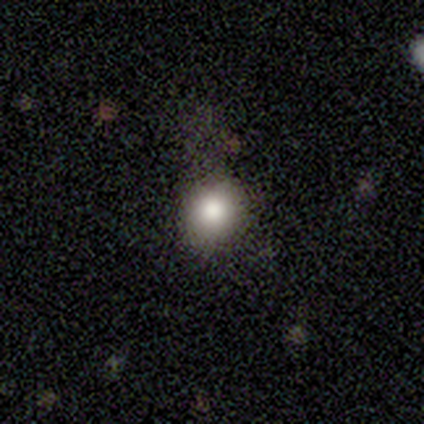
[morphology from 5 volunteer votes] smooth 60%, star or artifact 40%, featured or disk 0%. Down the decision tree: how rounded — round (100%); merging — none (100%).